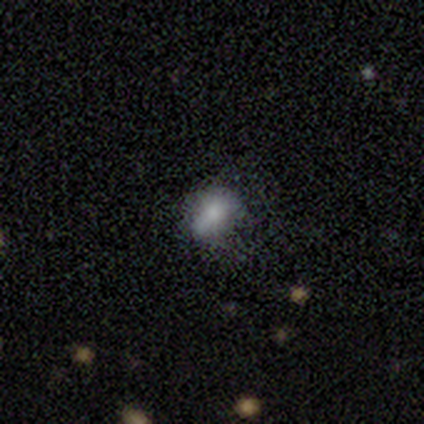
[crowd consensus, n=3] Morphology: type=smooth (100%); roundness=in between (67%); merging=none (100%).